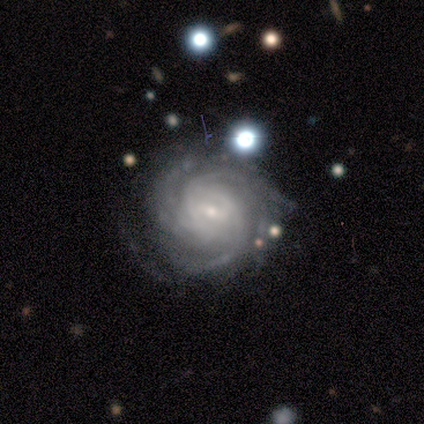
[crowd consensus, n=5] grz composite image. It shows a featured or disk galaxy (100%) with a weak bar (60%), more than 4 (40%) tight (40%, tied with loose) spiral arms (100%) and a small central bulge (80%). Merging: none (60%).